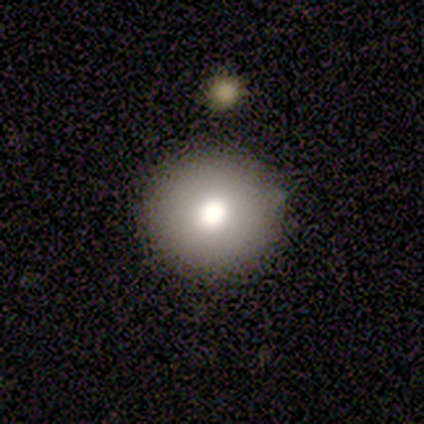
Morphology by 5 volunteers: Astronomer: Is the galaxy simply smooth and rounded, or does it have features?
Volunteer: smooth — 80%.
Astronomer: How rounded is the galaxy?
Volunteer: round — 100%.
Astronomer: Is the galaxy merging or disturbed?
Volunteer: none — 100%.